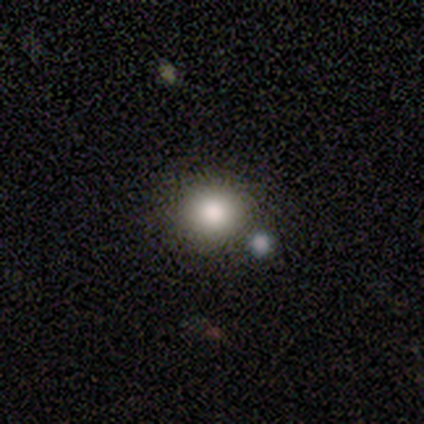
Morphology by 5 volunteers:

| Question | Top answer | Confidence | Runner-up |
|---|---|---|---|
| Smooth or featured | smooth | 100% | — |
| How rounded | round | 80% | in between (20%) |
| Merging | none | 100% | — |